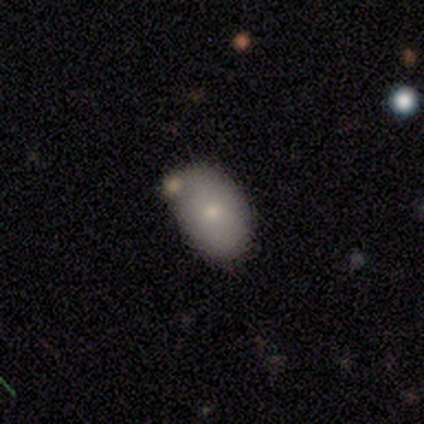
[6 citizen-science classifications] Overall: smooth (67%; featured or disk 33%). How rounded: in between (100%). Merging: none (67%).